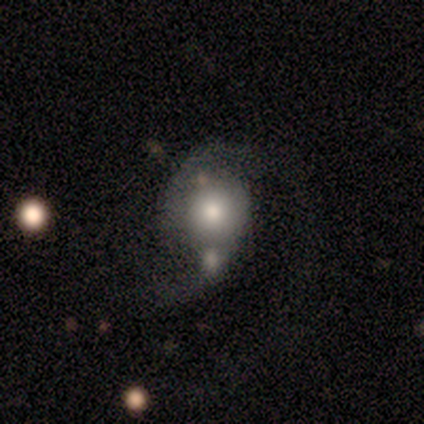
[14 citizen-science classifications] smooth 50% (tied), featured or disk 50% (tied), star or artifact 0%. Down the decision tree: how rounded — round (71%); merging — major disturbance (36%).